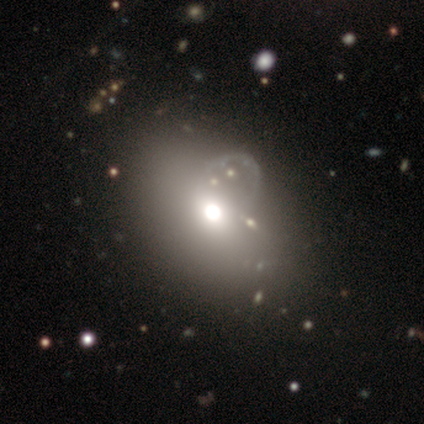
Smooth or featured: featured or disk — 100%
Edge-on disk: no — 67% (yes — 33%)
Bar: no — 100%
Spiral arms: no — 100%
Bulge size: moderate — 100%
Merging: none — 67% (major disturbance — 33%)